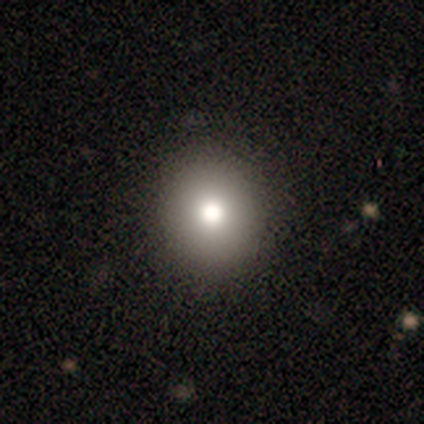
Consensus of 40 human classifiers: A smooth galaxy with no disk features (62%) that is round (80%). Merging: none (84%).